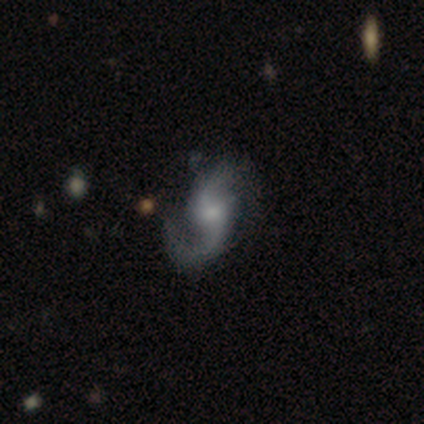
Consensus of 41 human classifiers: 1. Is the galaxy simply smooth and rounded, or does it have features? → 78% featured or disk, 15% star or artifact, 7% smooth.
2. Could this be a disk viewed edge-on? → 91% no, 9% yes.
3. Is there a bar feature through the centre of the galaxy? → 55% no, 41% weak, 3% strong.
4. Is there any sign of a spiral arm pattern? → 97% yes, 3% no.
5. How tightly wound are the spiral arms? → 57% loose, 36% medium, 7% tight.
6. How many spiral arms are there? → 79% 2, 18% 1, 4% 4, 0% 3, 0% more than 4, 0% can't tell.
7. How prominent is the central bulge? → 55% small, 38% moderate, 3% large, 3% none, 0% dominant.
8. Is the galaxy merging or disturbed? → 57% none, 29% minor disturbance, 14% major disturbance, 0% merger.